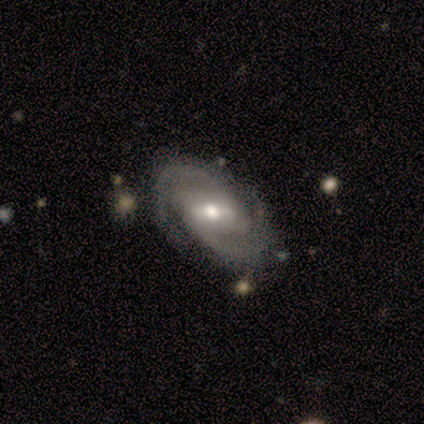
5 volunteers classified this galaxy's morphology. type=featured or disk (60%); edge-on=no (100%); bar=weak (67%); spiral arms=yes (100%); winding=tight (67%); arm count=2 (100%); bulge=moderate (100%); merging=none (80%).